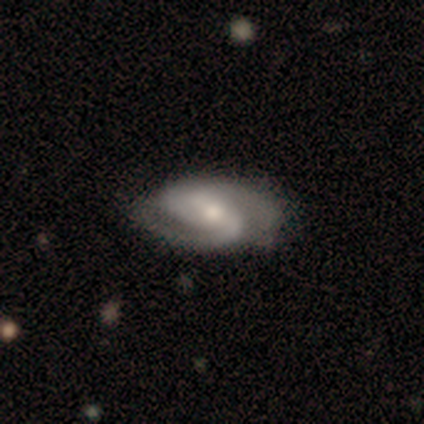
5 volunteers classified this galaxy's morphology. featured or disk 100%, smooth 0%, star or artifact 0%. Down the decision tree: edge-on disk — no (100%); bar — no (60%); spiral arms — yes (100%); spiral arm count — 2 (100%); spiral winding — medium (80%); bulge size — small (80%); merging — none (80%).